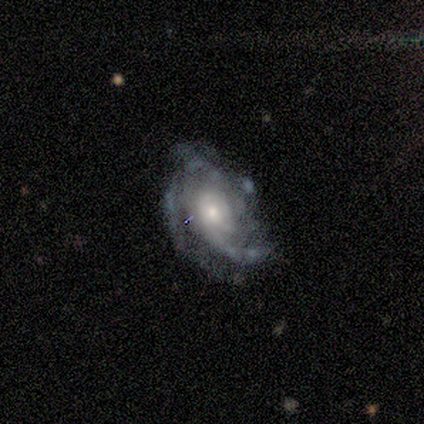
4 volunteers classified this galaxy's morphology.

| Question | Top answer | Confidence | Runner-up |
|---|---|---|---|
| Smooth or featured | featured or disk | 100% | — |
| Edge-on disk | no | 100% | — |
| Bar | weak | 50% | tied: no (50%) |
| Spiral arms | yes | 100% | — |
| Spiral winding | tight | 50% | tied: medium (50%) |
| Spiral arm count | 1 | 25% | tied: 3 (25%), 4 (25%), can't tell (25%) |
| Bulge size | moderate | 75% | small (25%) |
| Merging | major disturbance | 50% | none (25%) |